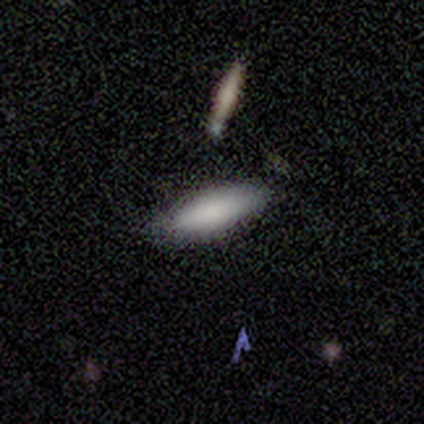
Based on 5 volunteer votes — Volunteers were most divided on "edge-on bulge" (2-way tie): boxy: 50%, rounded: 50%, none: 0%. More confident: merging — none (80%); edge-on disk — yes (67%); smooth or featured — featured or disk (60%).